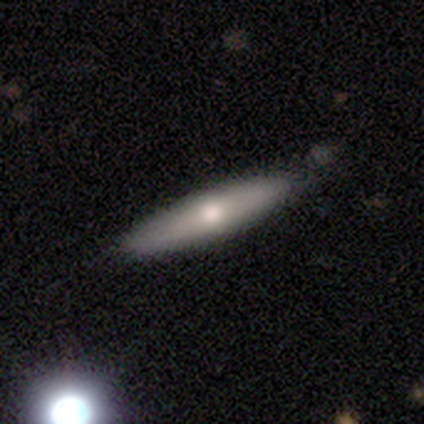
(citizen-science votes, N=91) Q: Smooth or featured?
A: smooth (56%); runner-up: featured or disk (35%)
Q: How rounded?
A: cigar-shaped (84%); runner-up: in between (14%)
Q: Merging?
A: none (84%); runner-up: minor disturbance (13%)